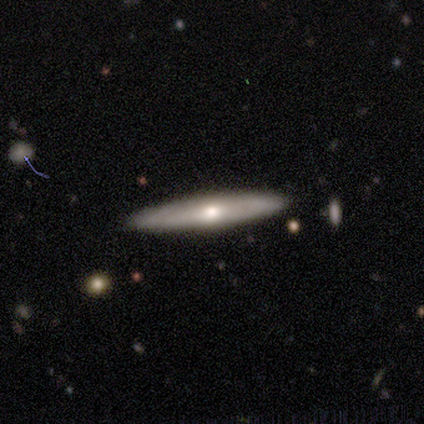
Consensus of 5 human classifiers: This is likely a featured or disk galaxy (60%). It is clearly viewed edge-on (100%). Edge-on bulge: likely rounded (67%). Merging: clearly none (100%).